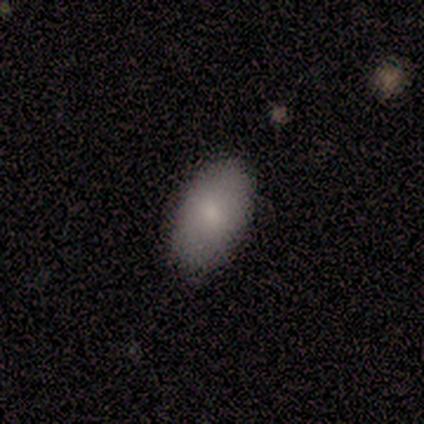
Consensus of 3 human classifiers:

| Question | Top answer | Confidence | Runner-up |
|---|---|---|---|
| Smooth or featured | smooth | 67% | featured or disk (33%) |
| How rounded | in between | 100% | — |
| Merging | none | 67% | minor disturbance (33%) |